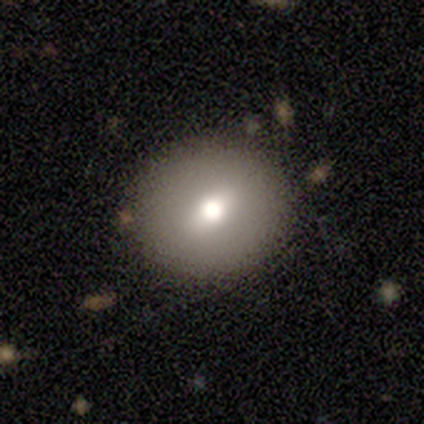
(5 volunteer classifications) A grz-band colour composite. It shows a smooth galaxy with no disk features (80%) that is round (100%). Merging: none (80%).